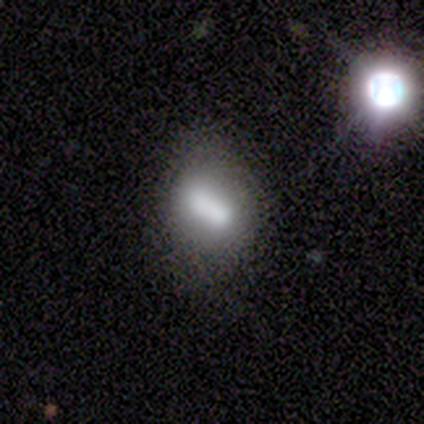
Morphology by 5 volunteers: This appears to be a smooth galaxy with no disk features (80%) that is in between round and cigar-shaped (50%, tied with cigar-shaped). Merging: none (80%).